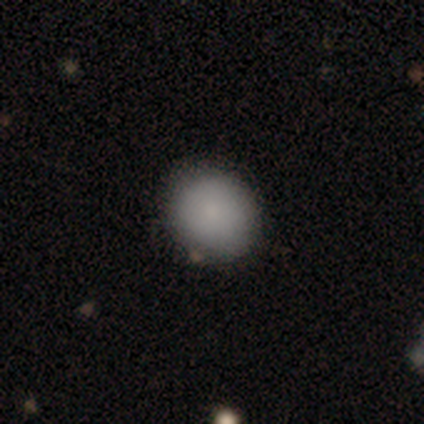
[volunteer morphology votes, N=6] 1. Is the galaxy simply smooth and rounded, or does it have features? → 100% smooth, 0% featured or disk, 0% star or artifact.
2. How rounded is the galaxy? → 83% round, 17% in between, 0% cigar-shaped.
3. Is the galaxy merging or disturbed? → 83% none, 17% minor disturbance, 0% major disturbance, 0% merger.